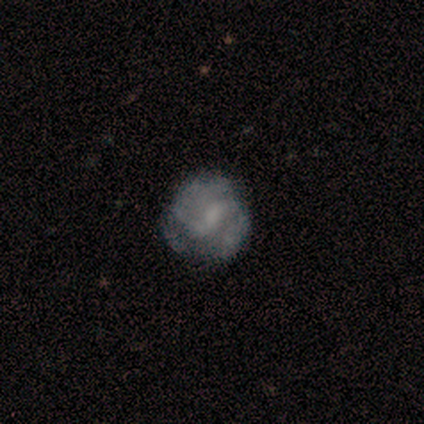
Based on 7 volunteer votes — Smooth or featured?
  - featured or disk: 100% *
  - smooth: 0%
  - star or artifact: 0%
Edge-on disk?
  - no: 100% *
  - yes: 0%
Bar?
  - weak: 86% *
  - no: 14%
  - strong: 0%
Spiral arms?
  - yes: 71% *
  - no: 29%
Spiral winding?
  - medium: 80% *
  - tight: 20%
  - loose: 0%
Spiral arm count?
  - 2: 80% *
  - 3: 20%
  - 1: 0%
  - 4: 0%
  - more than 4: 0%
  - can't tell: 0%
Bulge size?
  - none: 57% *
  - moderate: 29%
  - small: 14%
  - dominant: 0%
  - large: 0%
Merging?
  - none: 86% *
  - minor disturbance: 14%
  - major disturbance: 0%
  - merger: 0%